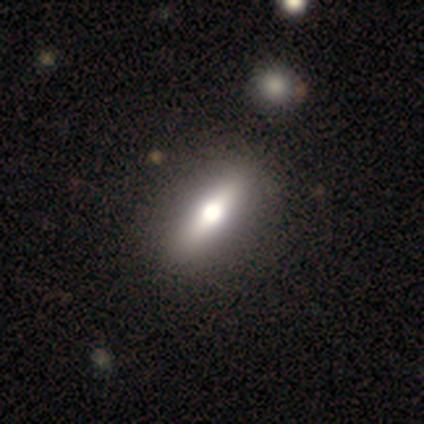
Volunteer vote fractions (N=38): Smooth or featured: featured or disk — 55% (smooth — 42%)
Edge-on disk: yes — 71% (no — 29%)
Edge-on bulge: rounded — 93% (boxy — 7%)
Merging: none — 57% (minor disturbance — 5%)